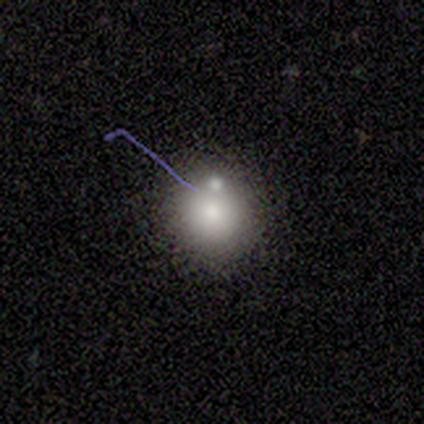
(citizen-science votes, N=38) This appears to be a smooth galaxy with no disk features (74%) that is round (96%). Merging: none (56%).